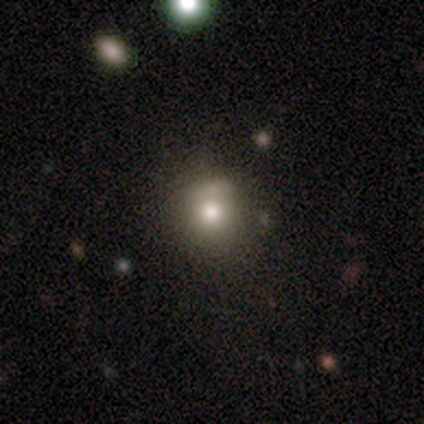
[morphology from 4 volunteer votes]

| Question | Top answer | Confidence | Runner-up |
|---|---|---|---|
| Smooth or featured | smooth | 75% | featured or disk (25%) |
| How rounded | round | 100% | — |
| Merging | none | 100% | — |